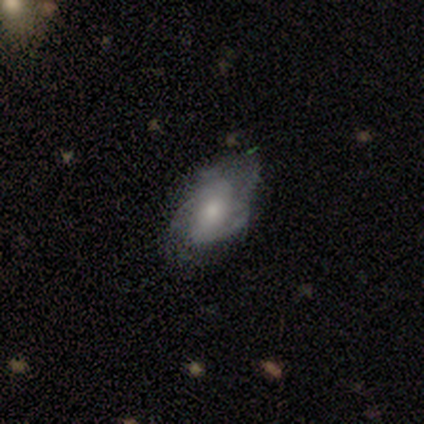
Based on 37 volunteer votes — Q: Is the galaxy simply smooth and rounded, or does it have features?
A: featured or disk — 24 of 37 (65%).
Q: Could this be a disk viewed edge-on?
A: no — 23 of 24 (96%).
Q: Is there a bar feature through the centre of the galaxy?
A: no — 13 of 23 (57%).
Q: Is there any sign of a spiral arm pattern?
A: yes — 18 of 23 (78%).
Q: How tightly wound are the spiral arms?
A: medium — 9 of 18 (50%).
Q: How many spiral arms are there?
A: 2 — 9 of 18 (50%).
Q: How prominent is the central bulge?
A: moderate — 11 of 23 (48%).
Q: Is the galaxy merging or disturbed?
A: none — 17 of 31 (55%).